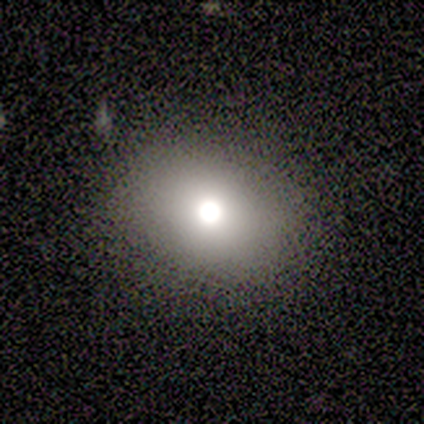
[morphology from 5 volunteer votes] This appears to be a smooth galaxy with no disk features (80%) that is round (75%). Merging: none (100%).